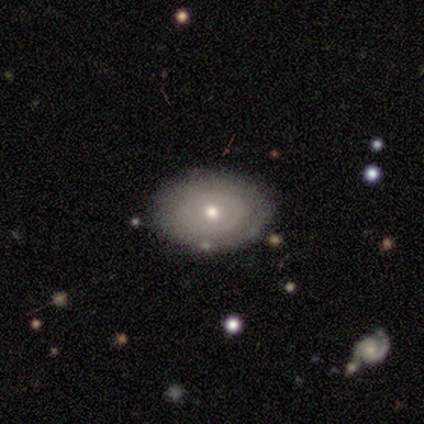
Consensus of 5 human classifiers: Morphology: type=smooth (80%); roundness=in between (100%); merging=none (80%).